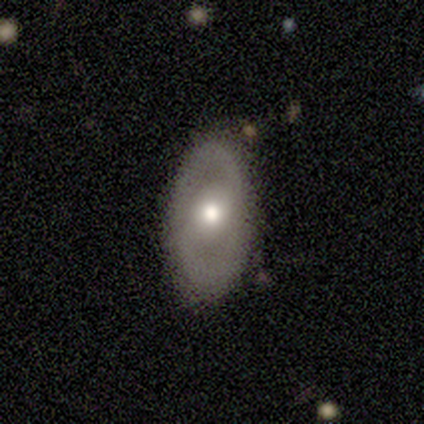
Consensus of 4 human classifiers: smooth 50% (tied), featured or disk 50% (tied), star or artifact 0%. Down the decision tree: how rounded — in between (100%); merging — none (100%).